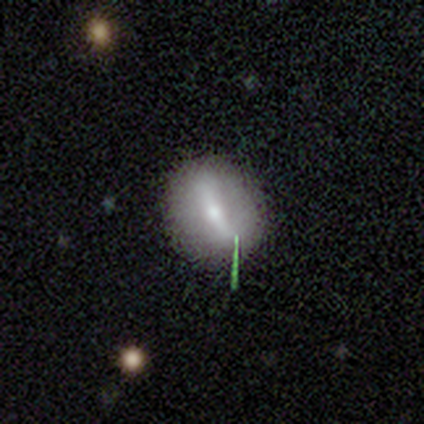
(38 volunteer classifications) Smooth or featured?
  - smooth: 50% *
  - featured or disk: 37%
  - star or artifact: 13%
How rounded?
  - in between: 58% *
  - round: 32%
  - cigar-shaped: 11%
Merging?
  - none: 88% *
  - minor disturbance: 9%
  - major disturbance: 3%
  - merger: 0%